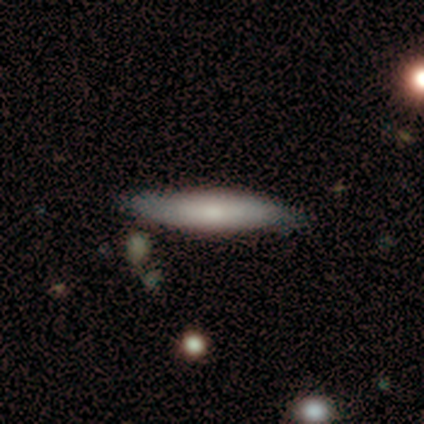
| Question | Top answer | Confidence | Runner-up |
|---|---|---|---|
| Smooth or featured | smooth | 79% | featured or disk (21%) |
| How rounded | cigar-shaped | 91% | in between (9%) |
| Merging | none | 79% | minor disturbance (14%) |